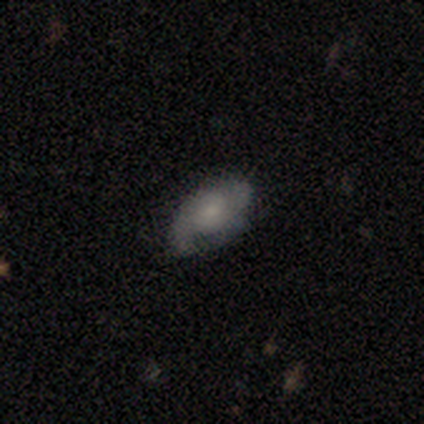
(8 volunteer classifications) Q: Smooth or featured?
A: smooth (50%); tied with: featured or disk (50%)
Q: How rounded?
A: in between (100%)
Q: Merging?
A: minor disturbance (62%); runner-up: major disturbance (25%)